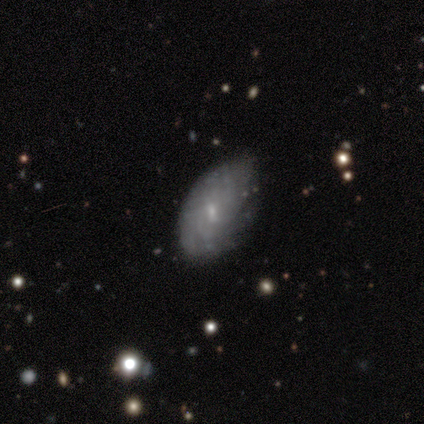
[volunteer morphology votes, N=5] Smooth or featured: featured or disk — 60% (smooth — 40%)
Edge-on disk: no — 100%
Bar: weak — 67% (no — 33%)
Spiral arms: no — 67% (yes — 33%)
Bulge size: small — 100%
Merging: none — 60% (minor disturbance — 40%)